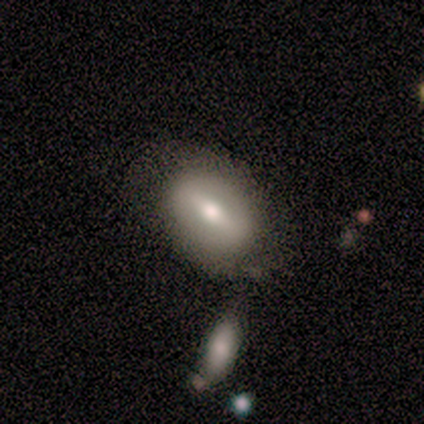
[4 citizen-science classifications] A featured or disk galaxy (100%) viewed edge-on (50%, tied with no) with a boxy central bulge (50%, tied with rounded). Merging: none (75%).